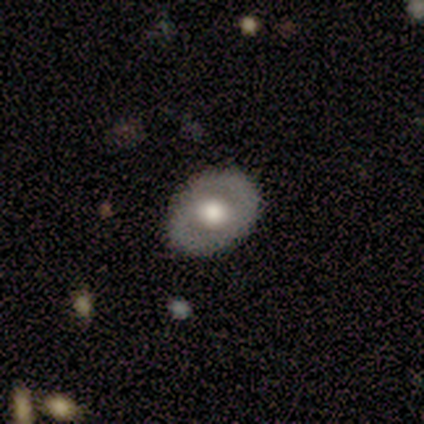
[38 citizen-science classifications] This is marginally a smooth galaxy (45%, tied with featured or disk). How rounded: likely in between (65%). Merging: clearly none (88%).